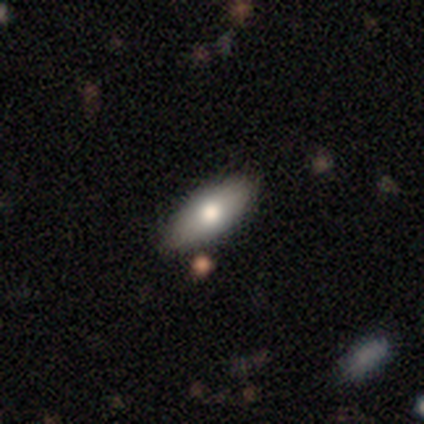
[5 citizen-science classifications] This appears to be a smooth galaxy with no disk features (60%) that is in between round and cigar-shaped (100%). Merging: none (80%).